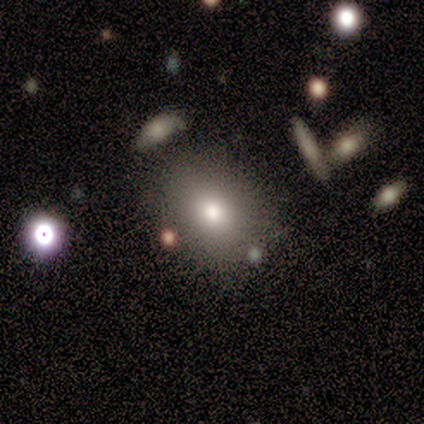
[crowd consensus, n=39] Morphology: type=smooth (64%); roundness=in between (56%); merging=none (82%).